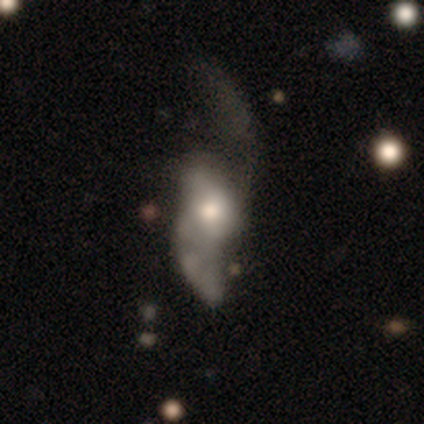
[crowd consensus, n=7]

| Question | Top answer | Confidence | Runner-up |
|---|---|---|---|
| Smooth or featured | featured or disk | 86% | smooth (14%) |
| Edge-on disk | no | 100% | — |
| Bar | no | 83% | weak (17%) |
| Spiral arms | yes | 100% | — |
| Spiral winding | loose | 100% | — |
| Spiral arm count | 2 | 100% | — |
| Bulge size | moderate | 67% | small (33%) |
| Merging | major disturbance | 57% | none (29%) |